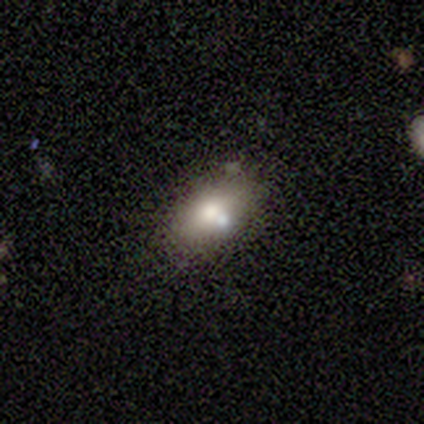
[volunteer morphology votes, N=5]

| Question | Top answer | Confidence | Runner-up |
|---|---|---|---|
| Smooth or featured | smooth | 60% | featured or disk (40%) |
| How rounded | in between | 67% | round (33%) |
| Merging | none | 60% | minor disturbance (20%) |